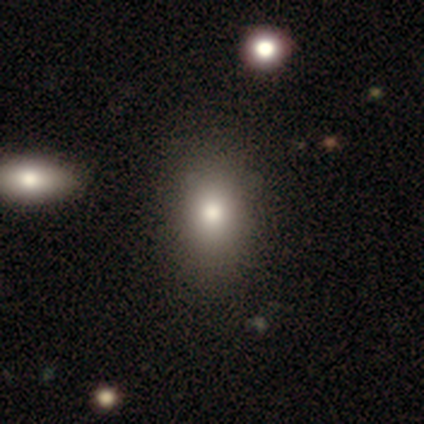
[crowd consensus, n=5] Smooth or featured? 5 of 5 (100%) said smooth. How rounded? 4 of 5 (80%) said in between. Merging? 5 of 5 (100%) said none.